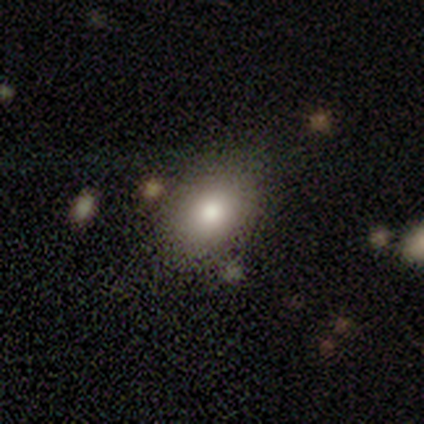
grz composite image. It shows a smooth galaxy with no disk features (83%) that is in between round and cigar-shaped (100%). Merging: none (100%).